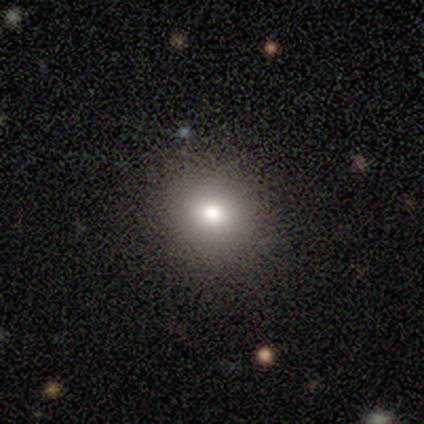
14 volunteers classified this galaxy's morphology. smooth 86%, featured or disk 7%, star or artifact 7%. Down the decision tree: how rounded — round (83%); merging — none (100%).